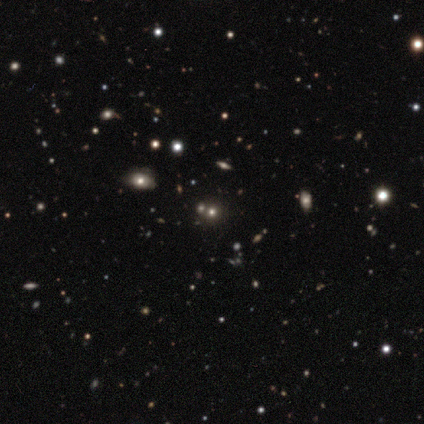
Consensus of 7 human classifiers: Smooth or featured: star or artifact — 71% (smooth — 29%)